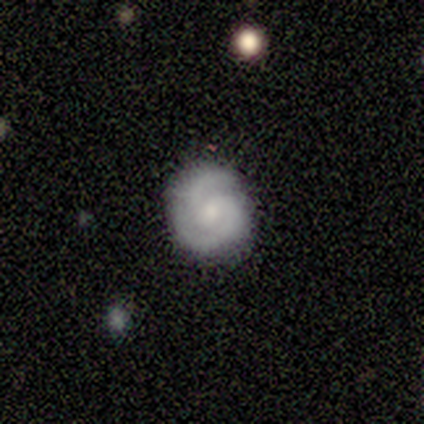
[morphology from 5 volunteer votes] smooth-or-featured: featured or disk: 100% | smooth: 0% | star or artifact: 0%
  disk-edge-on: no: 100% | yes: 0%
    bar: weak: 60% | no: 40% | strong: 0%
    has-spiral-arms: yes: 100% | no: 0%
      spiral-winding: medium: 80% | loose: 20% | tight: 0%
      spiral-arm-count: 2: 80% | more than 4: 20% | 1: 0% | 3: 0% | 4: 0% | can't tell: 0%
    bulge-size: small: 40% | large: 20% | moderate: 20% | none: 20% | dominant: 0%
  merging: none: 60% | minor disturbance: 20% | major disturbance: 20% | merger: 0%